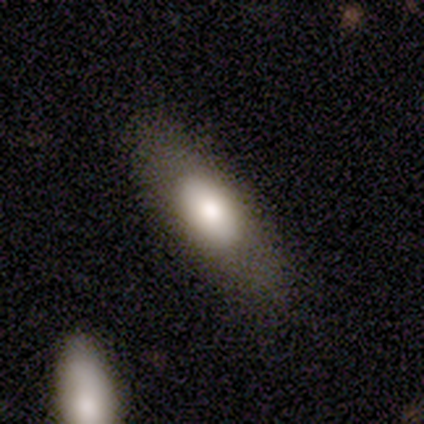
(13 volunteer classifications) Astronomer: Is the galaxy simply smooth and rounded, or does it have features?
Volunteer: smooth — 69%.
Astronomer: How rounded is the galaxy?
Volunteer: in between — 89%.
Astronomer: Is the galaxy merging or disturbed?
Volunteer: none — 54% (runner-up: minor disturbance, 31%).